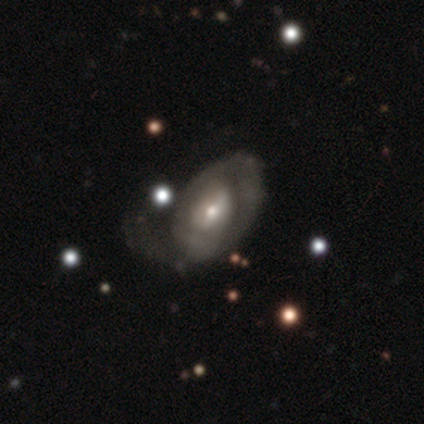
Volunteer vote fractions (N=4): Morphology: type=featured or disk (50%); edge-on=no (100%); bar=strong (50%, tied with weak); spiral arms=yes (50%, tied with no); winding=tight (100%); arm count=can't tell (100%); bulge=moderate (100%); merging=minor disturbance (33%, tied with major disturbance and merger).